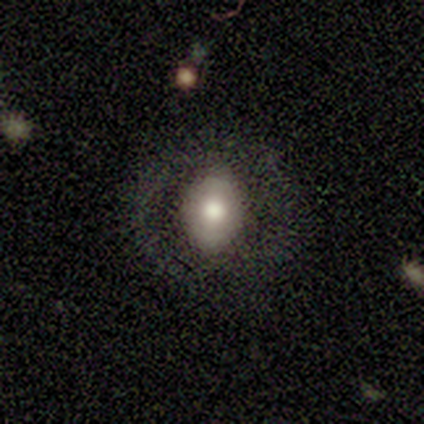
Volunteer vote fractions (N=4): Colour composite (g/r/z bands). It shows a featured or disk galaxy (75%) with no bar (100%), no spiral arms (100%) and a moderate central bulge (67%). Merging: none (75%).